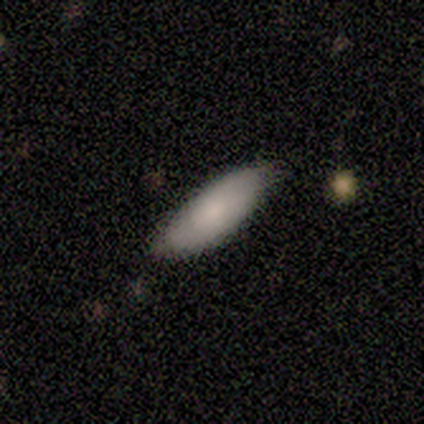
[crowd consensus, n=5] Smooth or featured?
  - smooth: 80% *
  - featured or disk: 20%
  - star or artifact: 0%
How rounded?
  - in between: 75% *
  - cigar-shaped: 25%
  - round: 0%
Merging?
  - none: 100% *
  - minor disturbance: 0%
  - major disturbance: 0%
  - merger: 0%